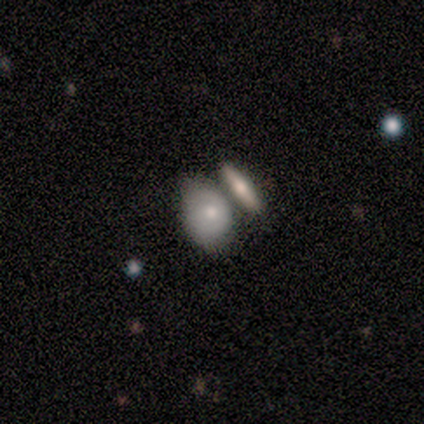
This is clearly a smooth galaxy (100%). How rounded: likely in between (75%). Merging: possibly none (50%, tied with merger).